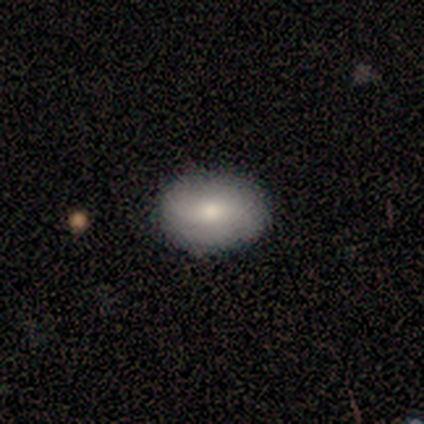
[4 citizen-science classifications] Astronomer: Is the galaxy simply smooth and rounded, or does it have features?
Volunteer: smooth — 75%.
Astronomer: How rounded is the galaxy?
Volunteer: in between — 67%.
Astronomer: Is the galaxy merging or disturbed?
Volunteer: none — 75%.